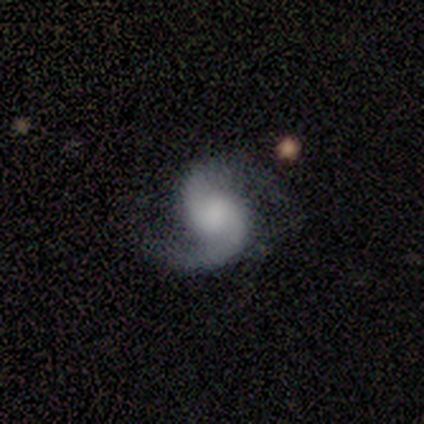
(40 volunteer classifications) Smooth or featured? featured or disk (95%)
Edge-on disk? no (100%)
Bar? no (68%)
Spiral arms? yes (97%)
Spiral winding? medium (51%)
Spiral arm count? 2 (92%)
Bulge size? none (45%)
Merging? none (71%)